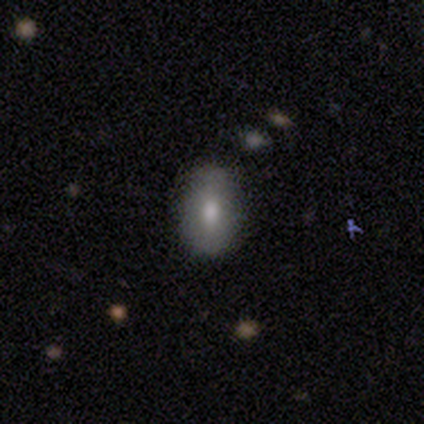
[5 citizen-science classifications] Smooth or featured? smooth (60%)
How rounded? in between (67%)
Merging? none (100%)